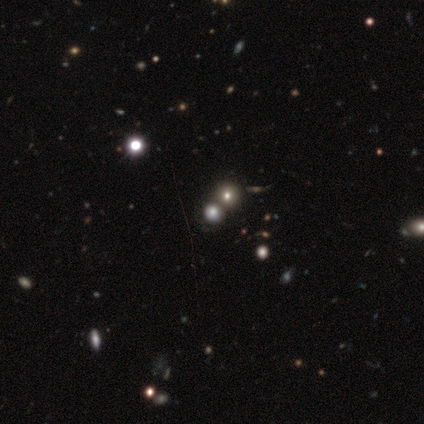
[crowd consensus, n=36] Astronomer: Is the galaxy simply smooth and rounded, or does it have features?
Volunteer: star or artifact — 50% (runner-up: smooth, 47%).